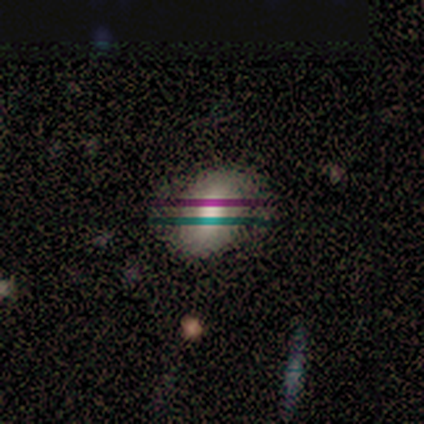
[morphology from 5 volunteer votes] featured or disk 40% (tied), star or artifact 40% (tied), smooth 20%. Down the decision tree: edge-on disk — no (100%); bar — strong (50%, tied with no); spiral arms — yes (100%); spiral arm count — 1 (50%, tied with 2); spiral winding — tight (100%); bulge size — large (100%); merging — minor disturbance (67%).